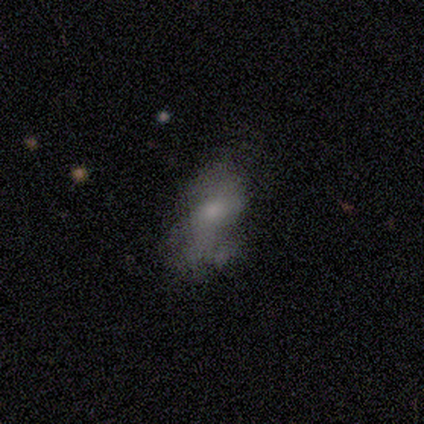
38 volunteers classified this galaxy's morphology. This appears to be a featured or disk galaxy (66%) with no bar (64%), no spiral arms (68%) and a small central bulge (40%). Merging: major disturbance (35%).